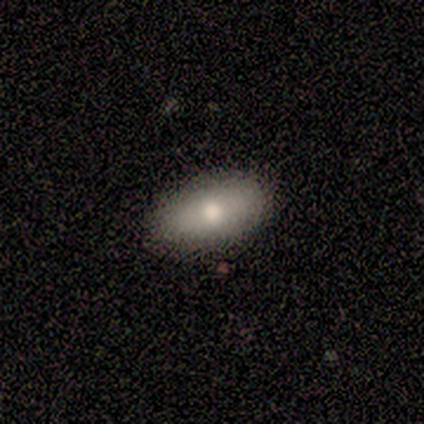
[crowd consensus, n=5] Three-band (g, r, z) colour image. It shows a smooth galaxy with no disk features (40%, tied with featured or disk) that is in between round and cigar-shaped (50%, tied with cigar-shaped). Merging: none (100%).